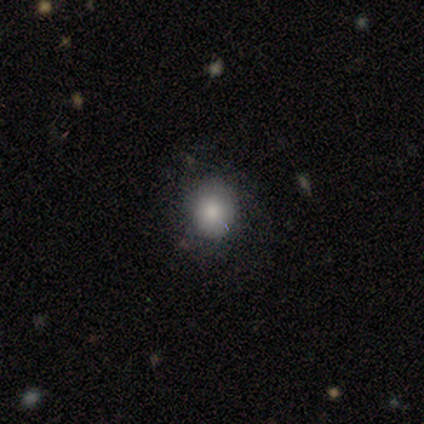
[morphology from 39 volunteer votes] Smooth or featured? smooth (74%)
How rounded? round (72%)
Merging? none (64%)